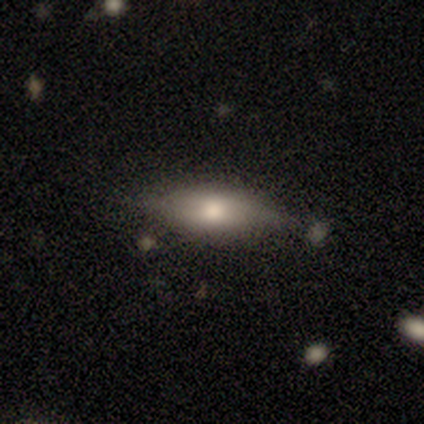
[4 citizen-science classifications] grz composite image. It shows a smooth galaxy with no disk features (50%, tied with featured or disk) that is in between round and cigar-shaped (100%). Merging: none (75%).